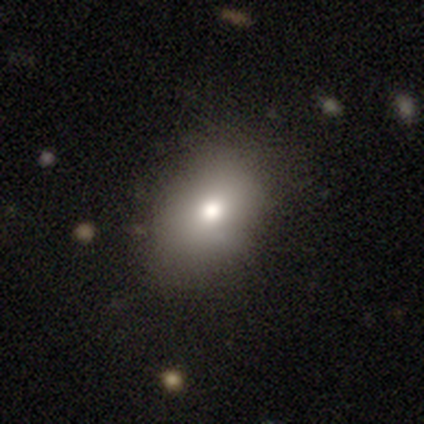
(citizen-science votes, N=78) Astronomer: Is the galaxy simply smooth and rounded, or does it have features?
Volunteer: smooth — 82%.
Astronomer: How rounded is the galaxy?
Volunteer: in between — 78%.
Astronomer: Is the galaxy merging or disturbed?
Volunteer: none — 48%.